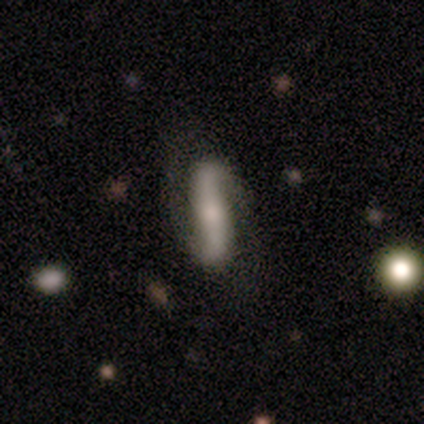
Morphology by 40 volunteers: Smooth or featured? 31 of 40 (78%) said featured or disk. Edge-on disk? 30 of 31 (97%) said no. Bar? 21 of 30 (70%) said strong. Spiral arms? 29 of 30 (97%) said yes. Spiral winding? 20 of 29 (69%) said loose. Spiral arm count? 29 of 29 (100%) said 2. Bulge size? 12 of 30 (40%) said small. Merging? 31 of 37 (84%) said none.